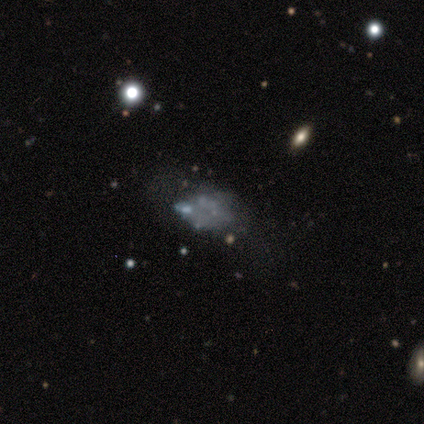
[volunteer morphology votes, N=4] smooth-or-featured: featured or disk: 75% | star or artifact: 25% | smooth: 0%
  disk-edge-on: no: 100% | yes: 0%
    bar: no: 100% | strong: 0% | weak: 0%
    has-spiral-arms: no: 100% | yes: 0%
    bulge-size: none: 100% | dominant: 0% | large: 0% | moderate: 0% | small: 0%
  merging: minor disturbance: 33% (tied) | major disturbance: 33% (tied) | merger: 33% (tied) | none: 0%